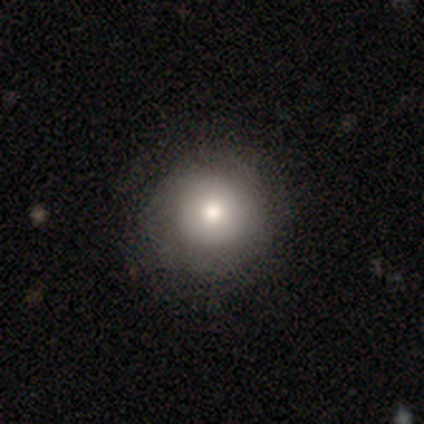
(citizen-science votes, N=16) Smooth or featured? 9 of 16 (56%) said smooth. How rounded? 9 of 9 (100%) said round. Merging? 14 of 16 (88%) said none.